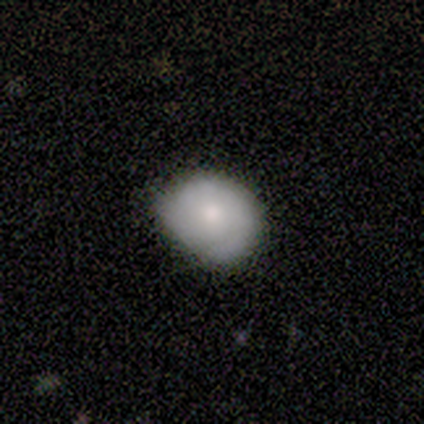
Smooth or featured?
  - smooth: 60% *
  - featured or disk: 40%
  - star or artifact: 0%
How rounded?
  - round: 100% *
  - in between: 0%
  - cigar-shaped: 0%
Merging?
  - none: 60% *
  - minor disturbance: 40%
  - major disturbance: 0%
  - merger: 0%